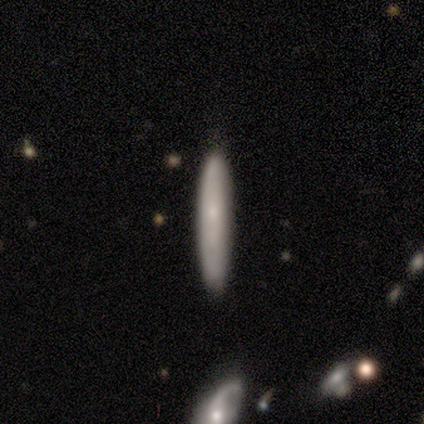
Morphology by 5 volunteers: Smooth or featured? 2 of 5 (40%, tied with featured or disk) said smooth. How rounded? 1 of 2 (50%, tied with cigar-shaped) said in between. Merging? 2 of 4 (50%) said minor disturbance.